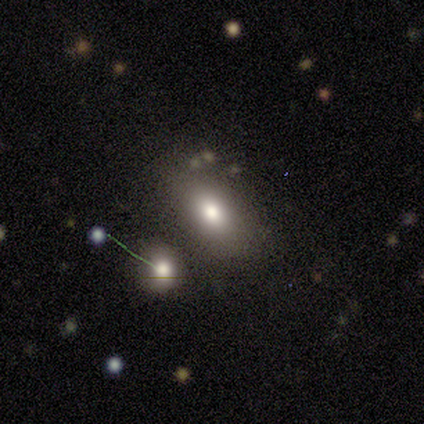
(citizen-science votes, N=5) Smooth or featured? 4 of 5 (80%) said smooth. How rounded? 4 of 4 (100%) said in between. Merging? 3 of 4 (75%) said none.